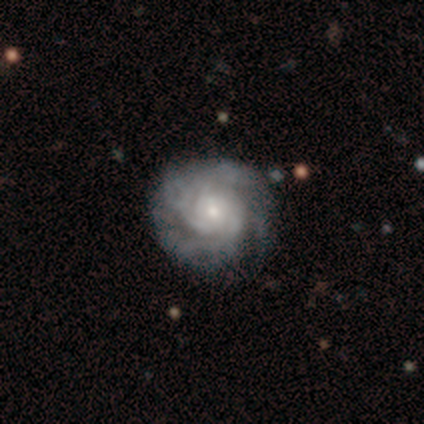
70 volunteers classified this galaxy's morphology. Volunteers were most divided on "spiral arm count": can't tell: 49%, 3: 21%, 4: 18%, 2: 7%, more than 4: 3%, 1: 2%. More confident: edge-on disk — no (100%); spiral arms — yes (98%); smooth or featured — featured or disk (89%); bar — no (76%); merging — none (71%); spiral winding — tight (67%); bulge size — small (66%).